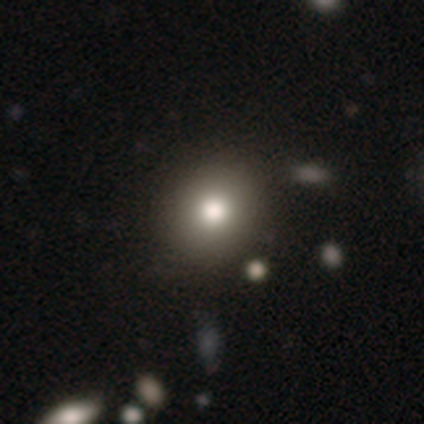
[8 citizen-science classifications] Morphology: type=smooth (75%); roundness=round (50%, tied with in between); merging=none (86%).